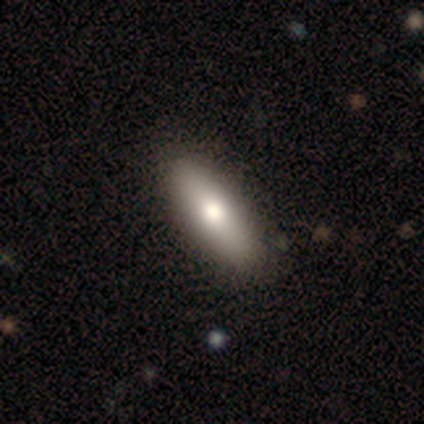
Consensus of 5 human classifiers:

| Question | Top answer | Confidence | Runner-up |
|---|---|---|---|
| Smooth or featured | smooth | 80% | featured or disk (20%) |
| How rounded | in between | 50% | tied: cigar-shaped (50%) |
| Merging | none | 100% | — |